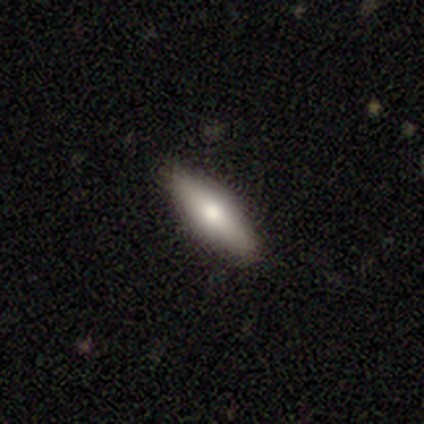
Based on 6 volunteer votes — Overall: featured or disk (50%; smooth 33%). Edge-on disk: yes (100%). Edge-on bulge: rounded (67%; boxy 33%). Merging: none (80%).